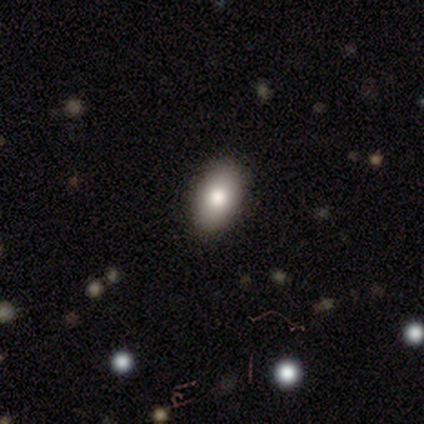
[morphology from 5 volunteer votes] This is clearly a smooth galaxy (80%). How rounded: likely in between (75%). Merging: clearly none (100%).